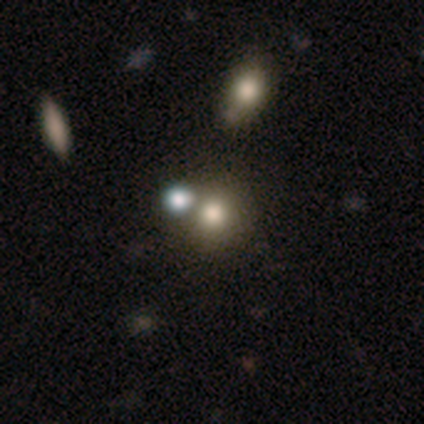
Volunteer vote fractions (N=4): smooth 50% (tied), featured or disk 50% (tied), star or artifact 0%. Down the decision tree: how rounded — round (100%); merging — none (50%, tied with merger).